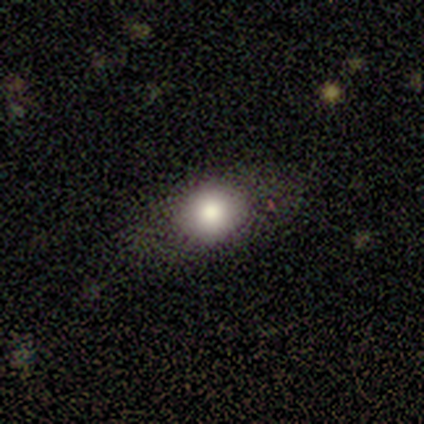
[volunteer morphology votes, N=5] Smooth or featured? smooth (60%)
How rounded? round (67%)
Merging? none (100%)